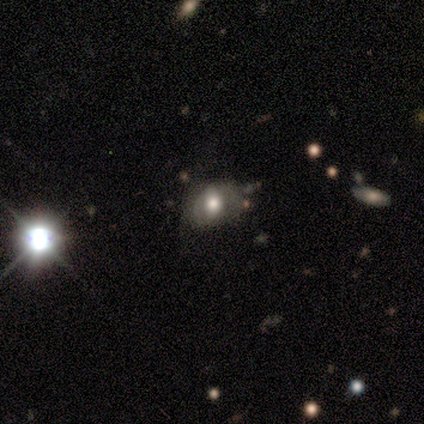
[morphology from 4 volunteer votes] Smooth or featured? smooth (50%, tied with star or artifact)
How rounded? in between (100%)
Merging? minor disturbance (100%)